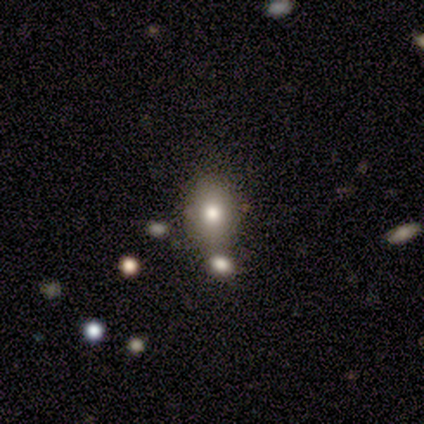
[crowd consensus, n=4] A featured or disk galaxy (50%) with no bar (100%), no spiral arms (100%) and a large central bulge (50%, tied with none). Merging: none (33%, tied with minor disturbance and merger).